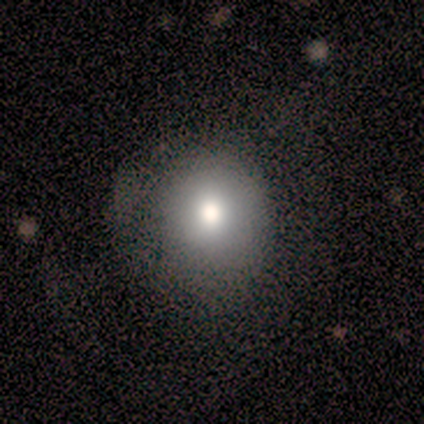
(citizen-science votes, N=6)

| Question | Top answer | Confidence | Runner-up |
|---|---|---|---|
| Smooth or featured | smooth | 83% | featured or disk (17%) |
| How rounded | round | 80% | in between (20%) |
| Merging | none | 83% | minor disturbance (17%) |